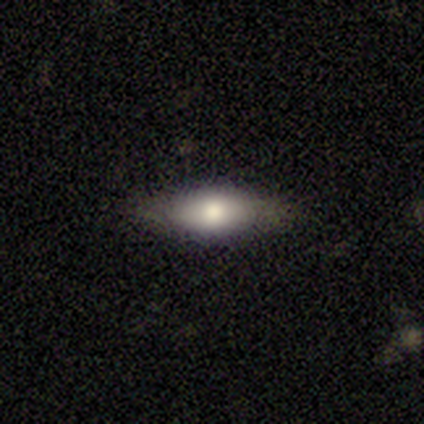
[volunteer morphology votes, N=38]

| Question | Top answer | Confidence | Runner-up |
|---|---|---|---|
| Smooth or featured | smooth | 58% | featured or disk (32%) |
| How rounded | in between | 82% | cigar-shaped (18%) |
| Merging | none | 79% | minor disturbance (21%) |